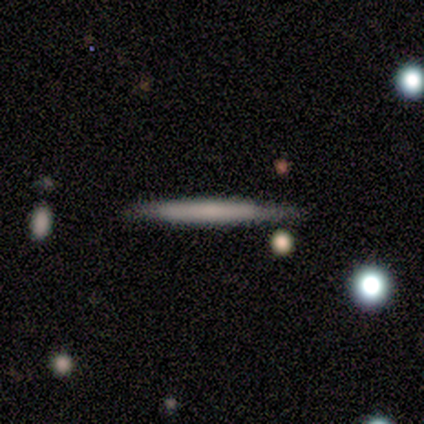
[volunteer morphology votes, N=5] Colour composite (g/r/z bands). It shows a smooth galaxy with no disk features (80%) that is cigar-shaped (100%). Merging: none (100%).